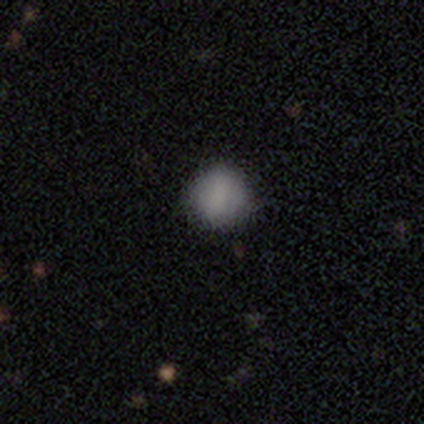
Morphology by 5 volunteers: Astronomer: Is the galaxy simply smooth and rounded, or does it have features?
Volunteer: star or artifact — 60% (runner-up: smooth, 40%).